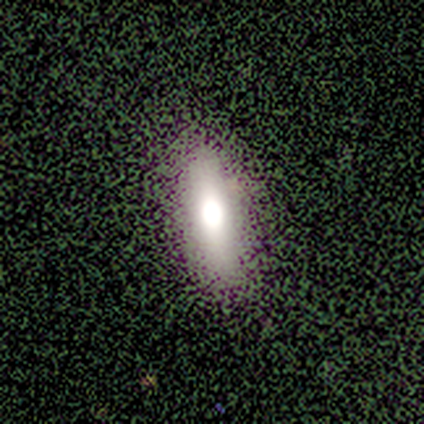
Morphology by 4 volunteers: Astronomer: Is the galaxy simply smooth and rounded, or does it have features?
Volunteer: smooth — 75%.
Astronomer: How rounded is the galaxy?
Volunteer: cigar-shaped — 100%.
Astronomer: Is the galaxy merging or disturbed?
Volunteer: none — 75%.